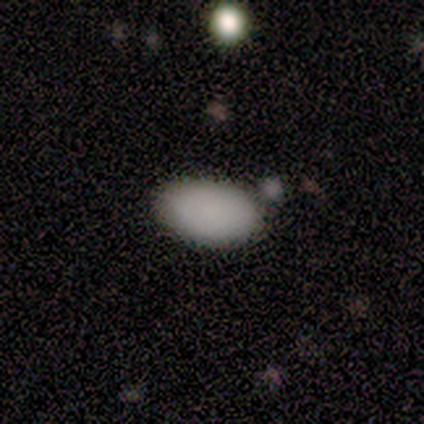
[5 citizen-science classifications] smooth_or_featured: smooth (p=1.00)
how_rounded: in between (p=1.00)
merging: none (p=1.00)